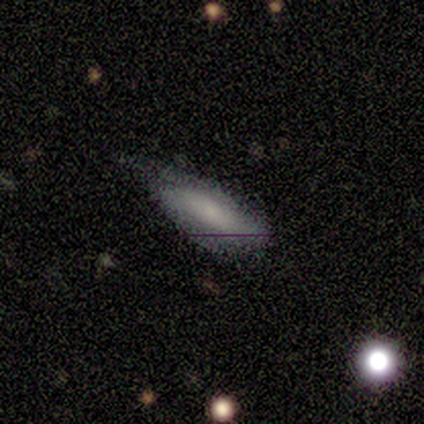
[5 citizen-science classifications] Smooth or featured? featured or disk (60%)
Edge-on disk? no (100%)
Bar? no (100%)
Spiral arms? no (100%)
Bulge size? small (67%)
Merging? minor disturbance (60%)